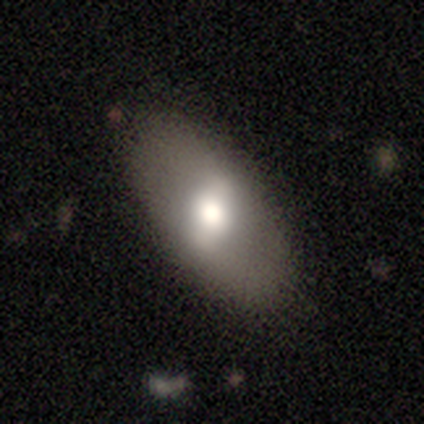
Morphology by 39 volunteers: type=smooth (54%); roundness=in between (71%); merging=none (89%).